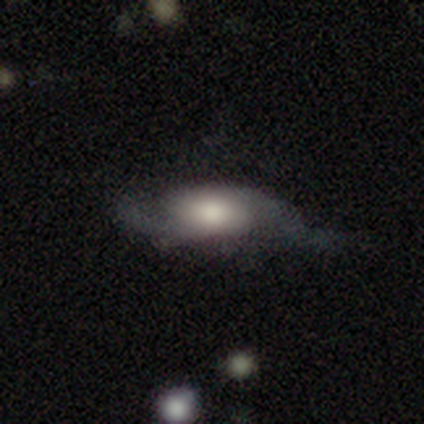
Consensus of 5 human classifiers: This appears to be a featured or disk galaxy (60%) with no bar (67%), 2 (100%) medium (67%) spiral arms (100%) and a dominant central bulge (33%, tied with large and moderate). Merging: minor disturbance (60%).